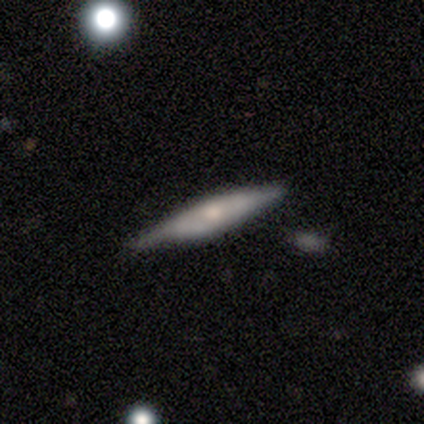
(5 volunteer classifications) A featured or disk galaxy (60%) viewed edge-on (100%) with no central bulge (67%). Merging: none (75%).